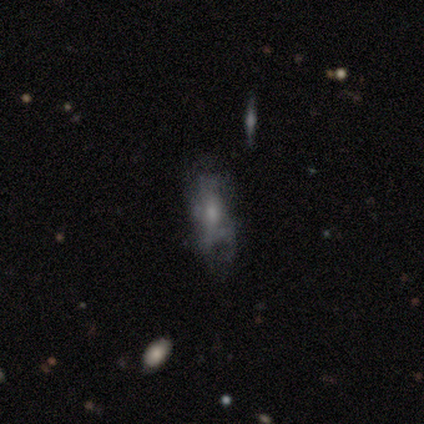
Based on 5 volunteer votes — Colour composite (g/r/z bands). It shows a featured or disk galaxy (80%) viewed edge-on (50%, tied with no) with a rounded central bulge (100%). Merging: minor disturbance (60%).